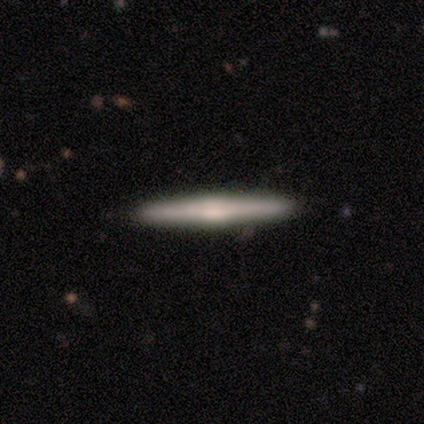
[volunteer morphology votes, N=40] Smooth or featured: featured or disk — 57% (smooth — 40%)
Edge-on disk: yes — 96% (no — 4%)
Edge-on bulge: rounded — 50% (boxy — 41%)
Merging: none — 92% (minor disturbance — 8%)